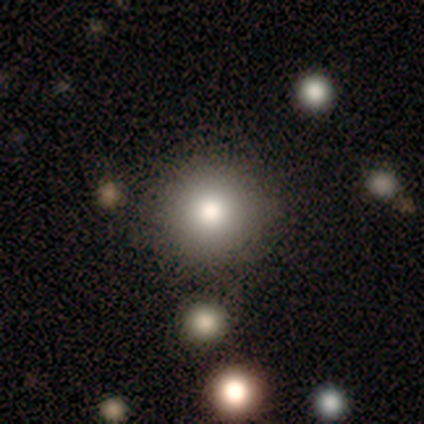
A smooth galaxy with no disk features (100%) that is round (80%).

Vote fractions:
- Smooth or featured? smooth: 100% / featured or disk: 0% / star or artifact: 0%
- How rounded? round: 80% / in between: 20% / cigar-shaped: 0%
- Merging? none: 100% / minor disturbance: 0% / major disturbance: 0% / merger: 0%